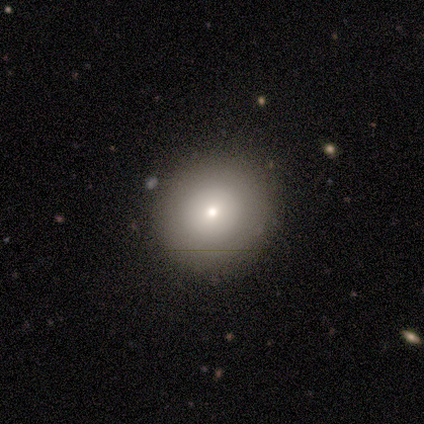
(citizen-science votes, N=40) A smooth galaxy with no disk features (72%) that is round (93%).

Vote fractions:
- Smooth or featured? smooth: 72% / star or artifact: 15% / featured or disk: 12%
- How rounded? round: 93% / in between: 7% / cigar-shaped: 0%
- Merging? none: 91% / minor disturbance: 6% / merger: 3% / major disturbance: 0%